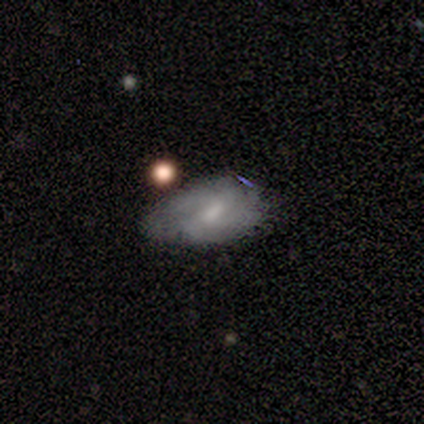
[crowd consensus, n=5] Overall: featured or disk (80%). Edge-on disk: no (100%). Bar: weak (50%, tied with no). Spiral arms: no (75%). Bulge size: moderate (75%). Merging: minor disturbance (60%; none 20%).